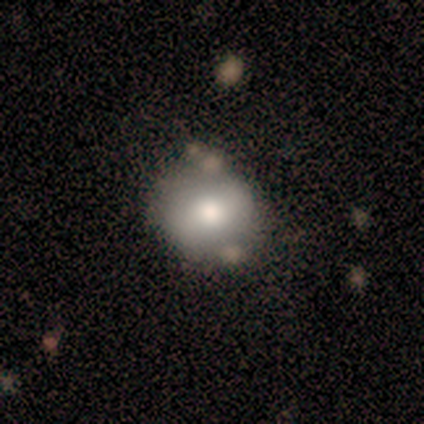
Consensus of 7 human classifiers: This is likely a smooth galaxy (71%). How rounded: clearly round (80%). Merging: clearly none (83%).